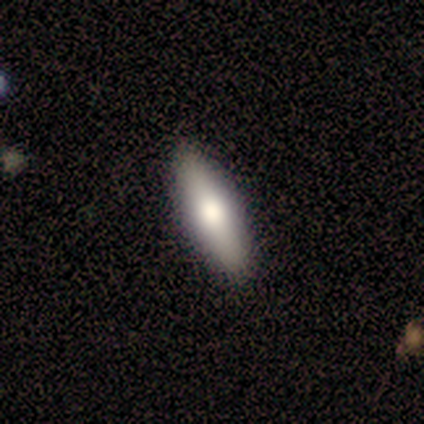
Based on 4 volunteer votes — Volunteers were most divided on "how rounded": in between: 67%, cigar-shaped: 33%, round: 0%. More confident: merging — none (100%); smooth or featured — smooth (75%).